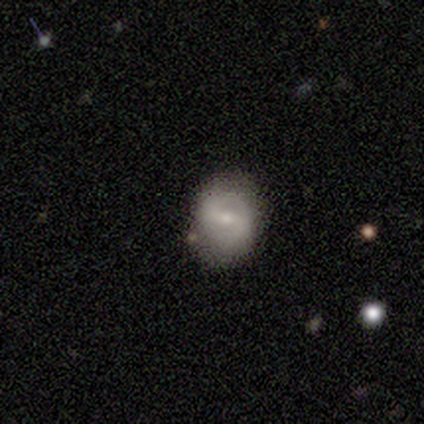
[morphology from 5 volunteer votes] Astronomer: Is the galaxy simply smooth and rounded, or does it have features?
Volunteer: smooth — 60% (runner-up: featured or disk, 40%).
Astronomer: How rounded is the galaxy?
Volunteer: in between — 67%.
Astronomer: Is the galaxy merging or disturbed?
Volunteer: none — 80%.